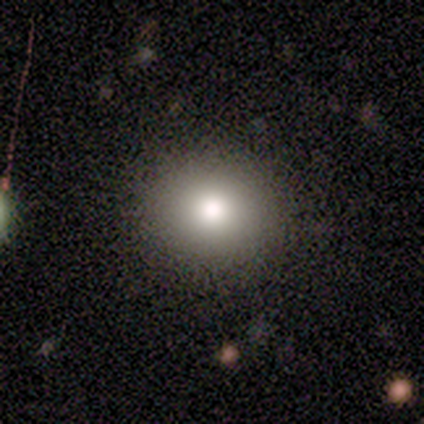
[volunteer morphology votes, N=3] smooth 33% (tied), featured or disk 33% (tied), star or artifact 33% (tied). Down the decision tree: how rounded — in between (100%); merging — none (50%, tied with minor disturbance).